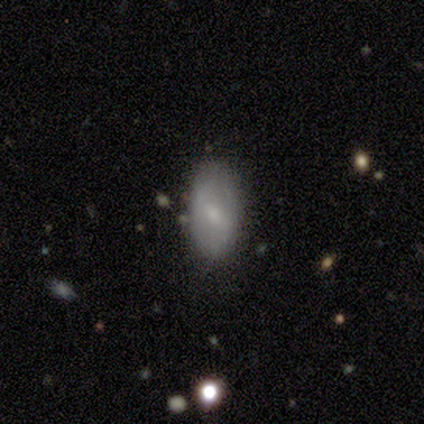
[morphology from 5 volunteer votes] Smooth or featured: smooth — 60% (featured or disk — 40%)
How rounded: in between — 100%
Merging: none — 100%